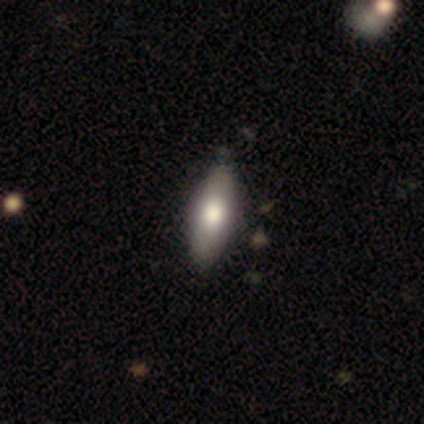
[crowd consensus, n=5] Smooth or featured? smooth (80%)
How rounded? in between (75%)
Merging? none (80%)